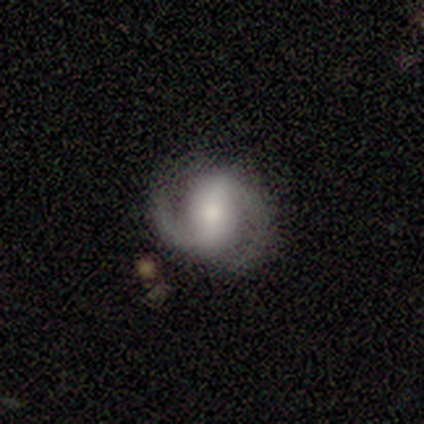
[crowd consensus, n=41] smooth-or-featured: featured or disk: 90% | smooth: 5% | star or artifact: 5%
  disk-edge-on: no: 100% | yes: 0%
    bar: strong: 51% | weak: 35% | no: 14%
    has-spiral-arms: yes: 100% | no: 0%
      spiral-winding: medium: 51% | tight: 24% | loose: 24%
      spiral-arm-count: 2: 92% | 1: 5% | can't tell: 3% | 3: 0% | 4: 0% | more than 4: 0%
    bulge-size: small: 35% | moderate: 32% | large: 24% | none: 8% | dominant: 0%
  merging: none: 85% | minor disturbance: 8% | major disturbance: 8% | merger: 0%